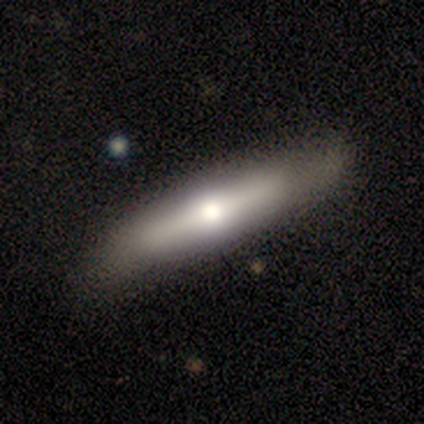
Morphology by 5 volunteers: Smooth or featured? smooth (80%)
How rounded? cigar-shaped (75%)
Merging? none (80%)